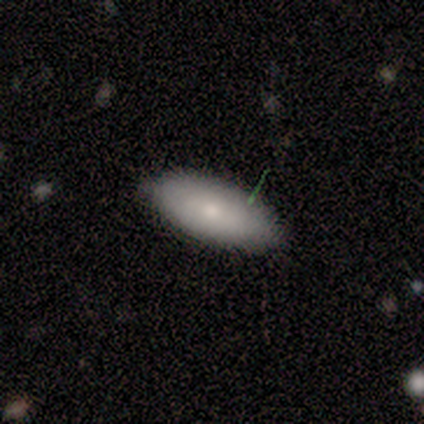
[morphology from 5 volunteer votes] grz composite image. It shows a smooth galaxy with no disk features (80%) that is in between round and cigar-shaped (75%). Merging: none (80%).